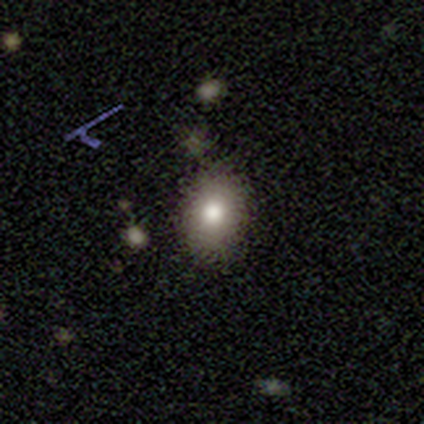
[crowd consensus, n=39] smooth 82%, star or artifact 10%, featured or disk 8%. Down the decision tree: how rounded — in between (66%); merging — none (86%).